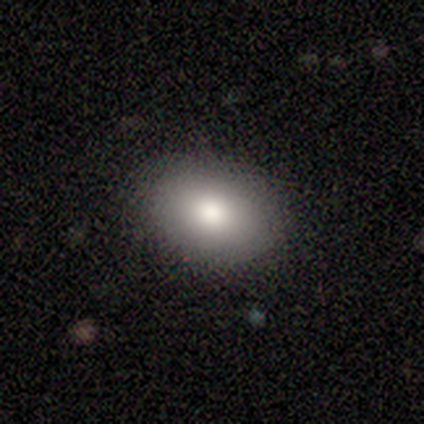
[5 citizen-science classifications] This is likely a smooth galaxy (60%). How rounded: likely in between (67%). Merging: clearly none (100%).